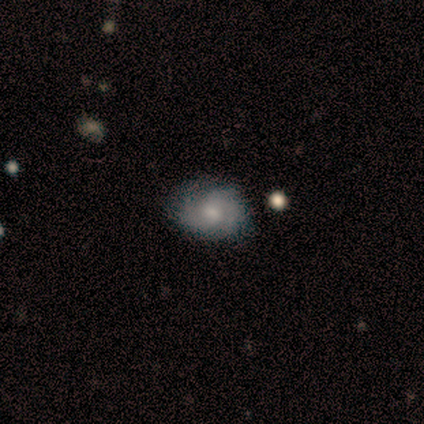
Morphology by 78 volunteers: A featured or disk galaxy (65%) with no bar (66%), 2 (33%, tied with 3) tight (67%) spiral arms (84%) and a moderate central bulge (54%). Merging: none (62%).